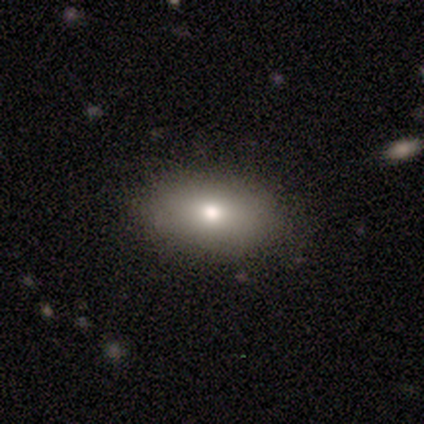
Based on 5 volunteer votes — A smooth galaxy with no disk features (100%) that is in between round and cigar-shaped (100%).

Vote fractions:
- Smooth or featured? smooth: 100% / featured or disk: 0% / star or artifact: 0%
- How rounded? in between: 100% / round: 0% / cigar-shaped: 0%
- Merging? none: 80% / major disturbance: 20% / minor disturbance: 0% / merger: 0%